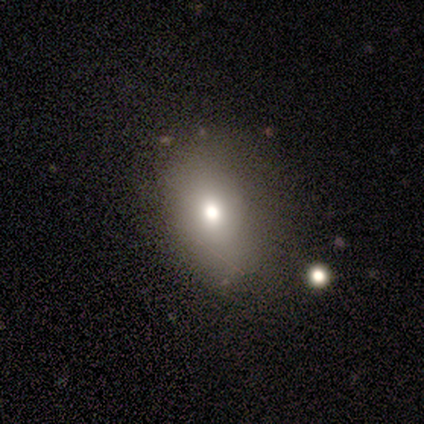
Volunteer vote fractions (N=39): smooth_or_featured: smooth (p=0.64) [alt: featured or disk p=0.21]
how_rounded: in between (p=0.84) [alt: round p=0.16]
merging: none (p=0.73) [alt: minor disturbance p=0.18]